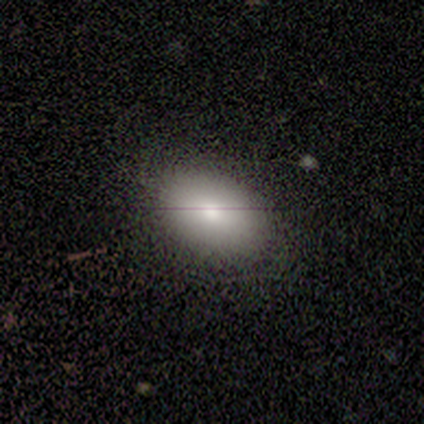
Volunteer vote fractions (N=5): Smooth or featured?
  - smooth: 80% *
  - star or artifact: 20%
  - featured or disk: 0%
How rounded?
  - in between: 100% *
  - round: 0%
  - cigar-shaped: 0%
Merging?
  - none: 100% *
  - minor disturbance: 0%
  - major disturbance: 0%
  - merger: 0%